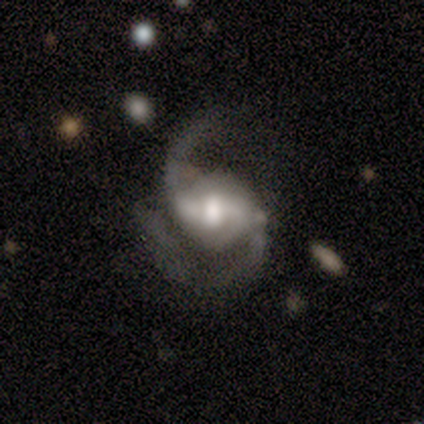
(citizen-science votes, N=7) smooth-or-featured: featured or disk: 100% | smooth: 0% | star or artifact: 0%
  disk-edge-on: no: 100% | yes: 0%
    bar: weak: 43% (tied) | no: 43% (tied) | strong: 14%
    has-spiral-arms: yes: 100% | no: 0%
      spiral-winding: medium: 86% | loose: 14% | tight: 0%
      spiral-arm-count: 2: 100% | 1: 0% | 3: 0% | 4: 0% | more than 4: 0% | can't tell: 0%
    bulge-size: moderate: 71% | large: 14% | small: 14% | dominant: 0% | none: 0%
  merging: major disturbance: 43% | none: 29% | minor disturbance: 29% | merger: 0%